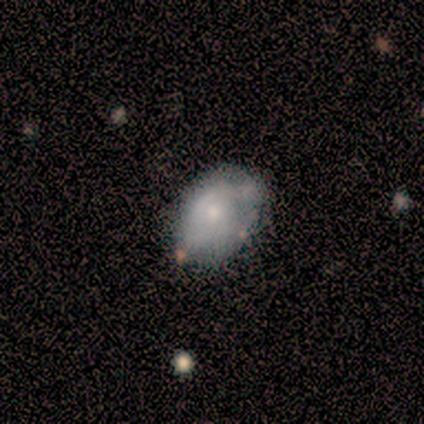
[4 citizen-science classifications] This is likely a smooth galaxy (75%). How rounded: likely in between (67%). Merging: clearly none (100%).